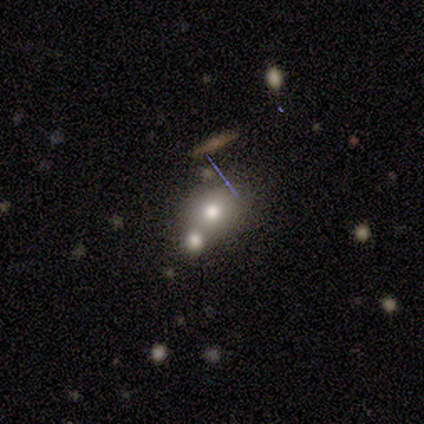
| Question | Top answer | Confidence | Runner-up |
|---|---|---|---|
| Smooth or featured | smooth | 51% | star or artifact (28%) |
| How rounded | round | 75% | in between (20%) |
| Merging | none | 43% | merger (39%) |